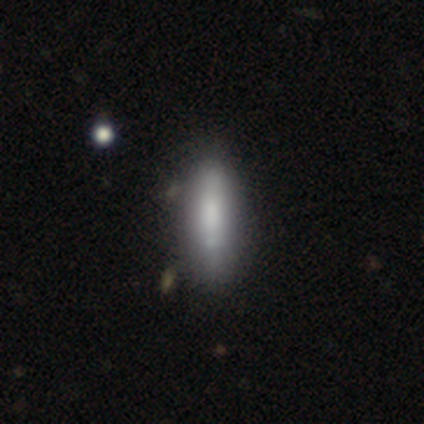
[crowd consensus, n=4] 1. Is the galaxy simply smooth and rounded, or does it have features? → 50% smooth (tied), 50% featured or disk (tied), 0% star or artifact.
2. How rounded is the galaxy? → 50% in between (tied), 50% cigar-shaped (tied), 0% round.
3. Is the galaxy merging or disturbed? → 100% none, 0% minor disturbance, 0% major disturbance, 0% merger.